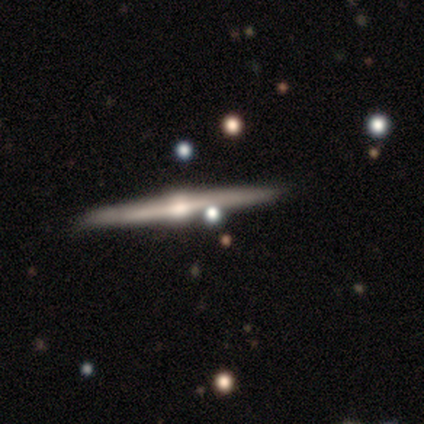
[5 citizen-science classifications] Overall: featured or disk (100%). Edge-on disk: yes (100%). Edge-on bulge: rounded (100%). Merging: none (80%).